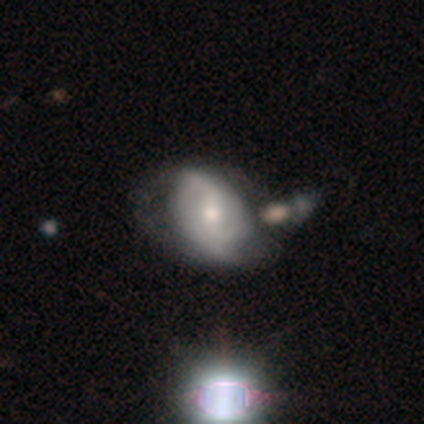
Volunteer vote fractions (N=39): smooth_or_featured: featured or disk (p=0.69) [alt: smooth p=0.23]
disk_edge_on: no (p=1.00)
bar: weak (p=0.44) [alt: strong p=0.33]
has_spiral_arms: yes (p=0.85) [alt: no p=0.15]
spiral_winding: loose (p=0.61) [alt: medium p=0.26]
spiral_arm_count: 2 (p=0.74) [alt: can't tell p=0.13]
bulge_size: moderate (p=0.48) [alt: small p=0.41]
merging: none (p=0.36) [alt: merger p=0.22]